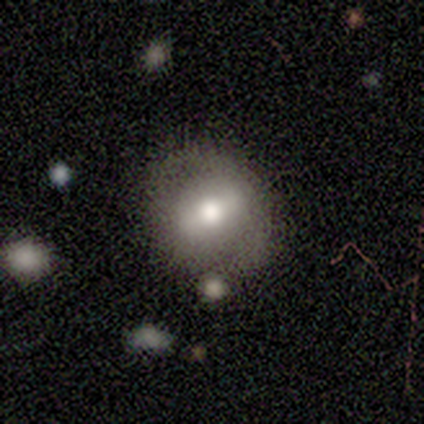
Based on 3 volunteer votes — Volunteers were most divided on "how rounded" (2-way tie): round: 50%, in between: 50%, cigar-shaped: 0%. More confident: smooth or featured — smooth (67%); merging — none (67%).